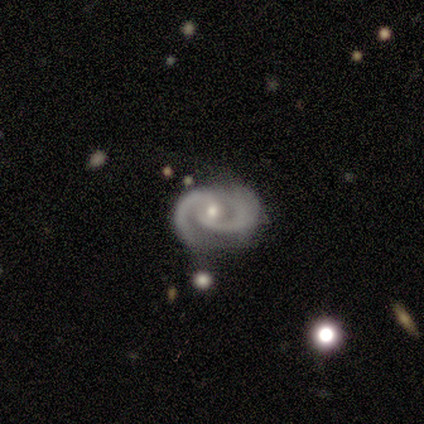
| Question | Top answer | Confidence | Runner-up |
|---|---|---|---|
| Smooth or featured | featured or disk | 100% | — |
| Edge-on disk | no | 100% | — |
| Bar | no | 100% | — |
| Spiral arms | yes | 100% | — |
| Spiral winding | tight | 75% | medium (25%) |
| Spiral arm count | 2 | 100% | — |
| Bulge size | small | 75% | moderate (25%) |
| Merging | minor disturbance | 75% | none (25%) |